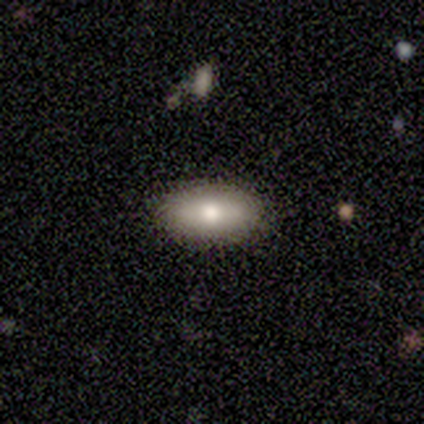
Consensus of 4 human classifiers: Smooth or featured? 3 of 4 (75%) said featured or disk. Edge-on disk? 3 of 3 (100%) said yes. Edge-on bulge? 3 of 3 (100%) said rounded. Merging? 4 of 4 (100%) said none.